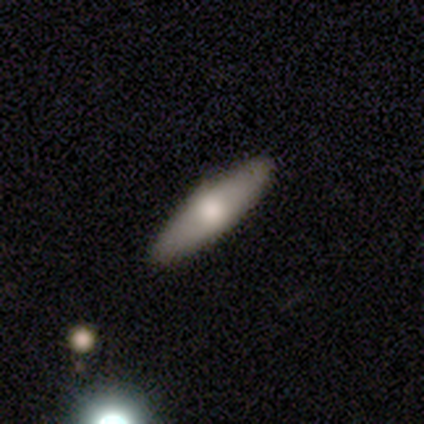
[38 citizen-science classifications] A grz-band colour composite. It shows a smooth galaxy with no disk features (55%) that is in between round and cigar-shaped (57%). Merging: none (68%).